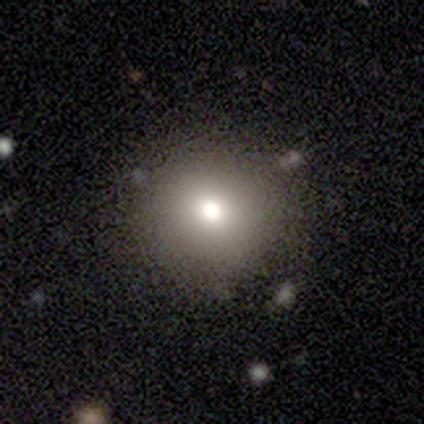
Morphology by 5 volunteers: smooth_or_featured: smooth (p=0.60) [alt: star or artifact p=0.40]
how_rounded: round (p=1.00)
merging: none (p=0.67) [alt: minor disturbance p=0.33]